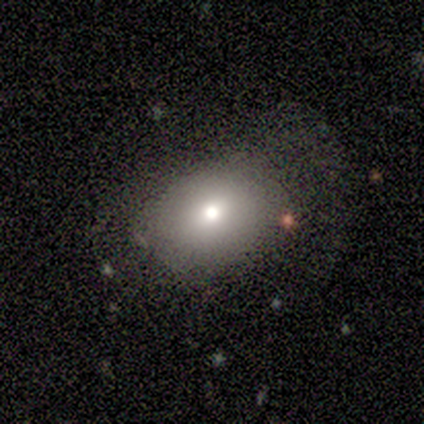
smooth-or-featured: smooth: 75% | featured or disk: 25% | star or artifact: 0%
  how-rounded: round: 67% | in between: 33% | cigar-shaped: 0%
  merging: none: 75% | major disturbance: 25% | minor disturbance: 0% | merger: 0%